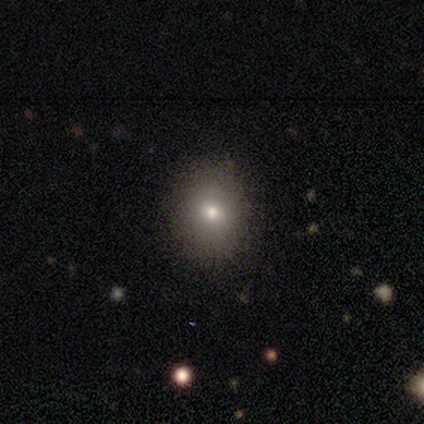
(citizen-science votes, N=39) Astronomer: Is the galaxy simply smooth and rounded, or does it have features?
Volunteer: smooth — 67%.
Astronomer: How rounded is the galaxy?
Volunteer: in between — 58% (runner-up: round, 42%).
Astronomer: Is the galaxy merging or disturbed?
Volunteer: none — 88%.